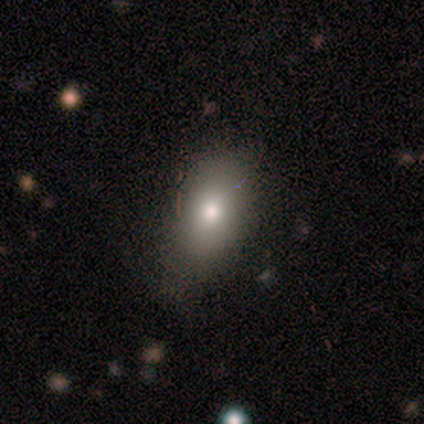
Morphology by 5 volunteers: Volunteers were most divided on "smooth or featured": smooth: 80%, star or artifact: 20%, featured or disk: 0%. More confident: how rounded — in between (100%); merging — none (100%).